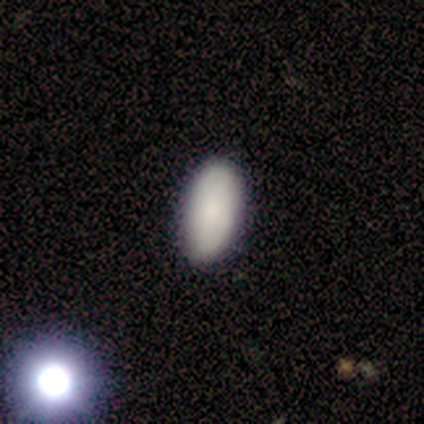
Smooth or featured?
  - smooth: 50% * (tied)
  - featured or disk: 50% * (tied)
  - star or artifact: 0%
How rounded?
  - in between: 100% *
  - round: 0%
  - cigar-shaped: 0%
Merging?
  - none: 100% *
  - minor disturbance: 0%
  - major disturbance: 0%
  - merger: 0%